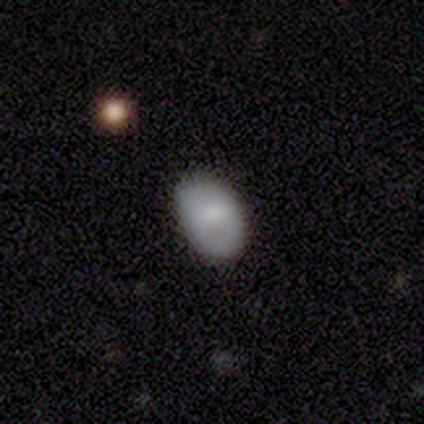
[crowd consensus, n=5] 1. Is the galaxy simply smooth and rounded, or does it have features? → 100% smooth, 0% featured or disk, 0% star or artifact.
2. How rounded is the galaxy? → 100% in between, 0% round, 0% cigar-shaped.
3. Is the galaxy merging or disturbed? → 100% none, 0% minor disturbance, 0% major disturbance, 0% merger.